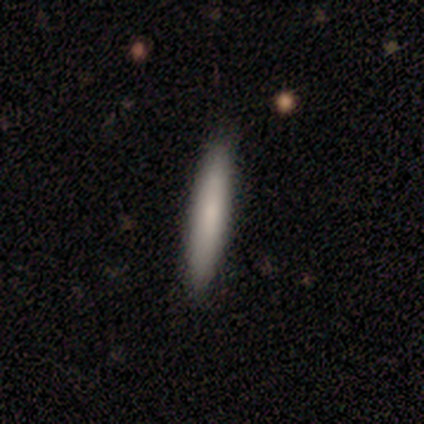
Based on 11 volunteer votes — A smooth galaxy with no disk features (82%) that is cigar-shaped (100%). Merging: none (91%).